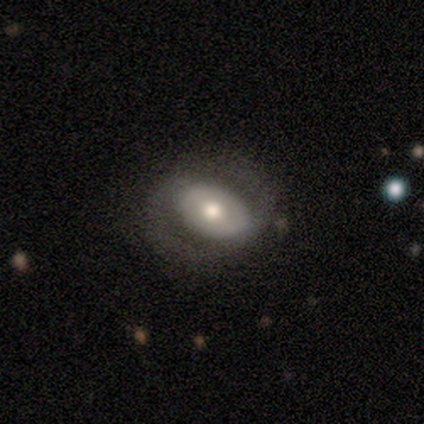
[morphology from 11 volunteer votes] smooth-or-featured: featured or disk: 82% | smooth: 18% | star or artifact: 0%
  disk-edge-on: no: 100% | yes: 0%
    bar: weak: 44% | no: 33% | strong: 22%
    has-spiral-arms: yes: 67% | no: 33%
      spiral-winding: medium: 50% | loose: 33% | tight: 17%
      spiral-arm-count: 2: 83% | can't tell: 17% | 1: 0% | 3: 0% | 4: 0% | more than 4: 0%
    bulge-size: moderate: 67% | dominant: 11% | large: 11% | small: 11% | none: 0%
  merging: none: 55% | minor disturbance: 27% | major disturbance: 18% | merger: 0%